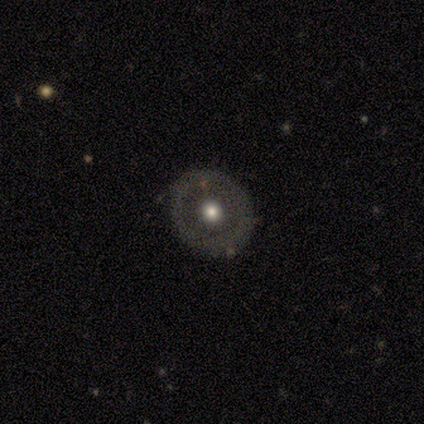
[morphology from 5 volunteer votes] Smooth or featured? 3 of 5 (60%) said smooth. How rounded? 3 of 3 (100%) said round. Merging? 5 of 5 (100%) said none.